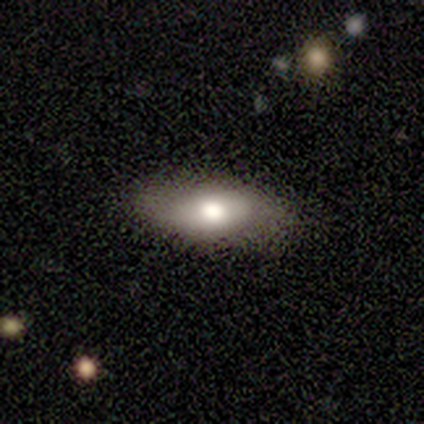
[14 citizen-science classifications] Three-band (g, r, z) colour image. It shows a smooth galaxy with no disk features (79%) that is in between round and cigar-shaped (100%). Merging: none (79%).